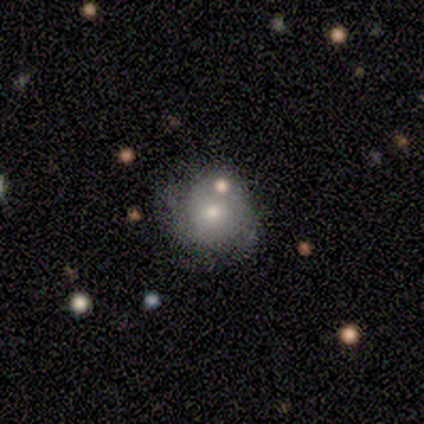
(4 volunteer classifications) Smooth or featured: star or artifact — 50% (smooth — 25%)